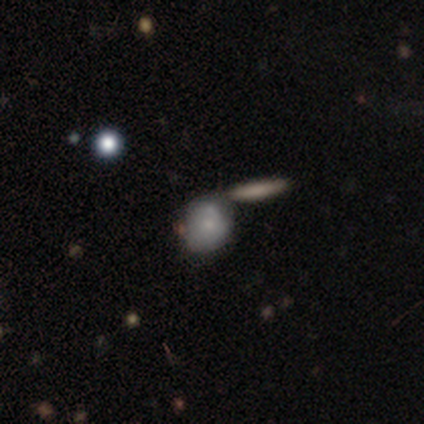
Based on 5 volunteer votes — A smooth galaxy with no disk features (80%) that is round (50%, tied with in between).

Vote fractions:
- Smooth or featured? smooth: 80% / featured or disk: 20% / star or artifact: 0%
- How rounded? round: 50% (tied) / in between: 50% (tied) / cigar-shaped: 0%
- Merging? merger: 60% / none: 20% / minor disturbance: 20% / major disturbance: 0%